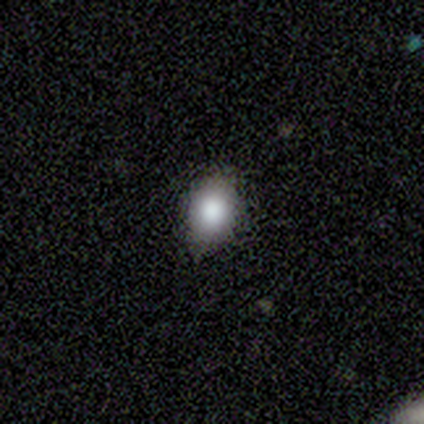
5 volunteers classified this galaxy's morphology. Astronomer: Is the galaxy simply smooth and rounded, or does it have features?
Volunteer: smooth — 80%.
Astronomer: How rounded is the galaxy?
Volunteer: in between — 75%.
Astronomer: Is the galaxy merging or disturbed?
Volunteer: none — 100%.